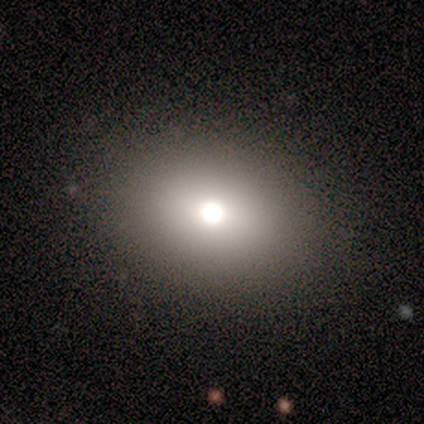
Morphology: type=smooth (80%); roundness=round (75%); merging=none (80%).